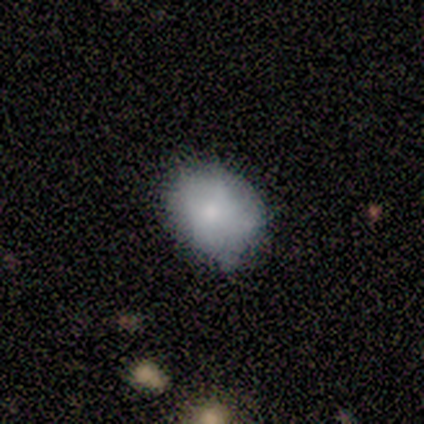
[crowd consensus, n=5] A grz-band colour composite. It shows a smooth galaxy with no disk features (60%) that is round (67%). Merging: none (100%).